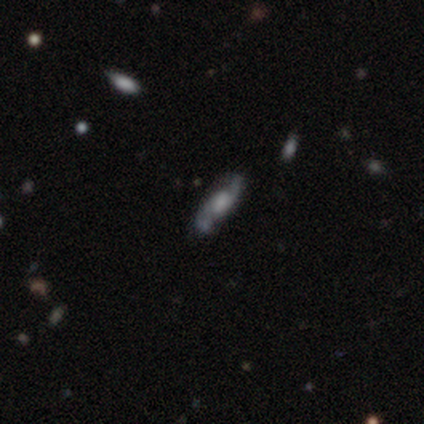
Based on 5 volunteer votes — featured or disk 80%, star or artifact 20%, smooth 0%. Down the decision tree: edge-on disk — yes (50%, tied with no); edge-on bulge — boxy (50%, tied with none); merging — none (75%).